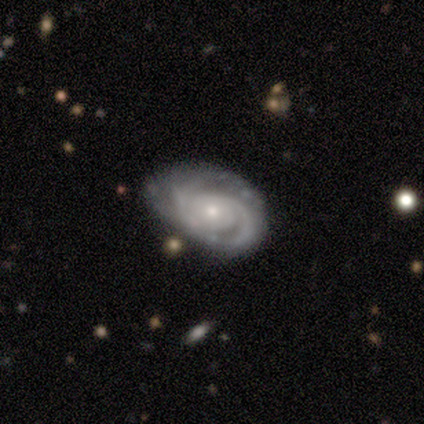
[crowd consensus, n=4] A featured or disk galaxy (100%) with no bar (75%), 2 (75%) tight (100%) spiral arms (100%) and a moderate central bulge (75%).

Vote fractions:
- Smooth or featured? featured or disk: 100% / smooth: 0% / star or artifact: 0%
- Edge-on disk? no: 100% / yes: 0%
- Bar? no: 75% / weak: 25% / strong: 0%
- Spiral arms? yes: 100% / no: 0%
- Spiral winding? tight: 100% / medium: 0% / loose: 0%
- Spiral arm count? 2: 75% / 3: 25% / 1: 0% / 4: 0% / more than 4: 0% / can't tell: 0%
- Bulge size? moderate: 75% / small: 25% / dominant: 0% / large: 0% / none: 0%
- Merging? none: 50% / minor disturbance: 25% / major disturbance: 25% / merger: 0%